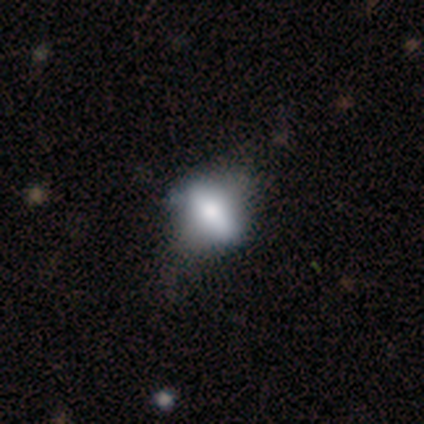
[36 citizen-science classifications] This appears to be a smooth galaxy with no disk features (53%) that is in between round and cigar-shaped (53%). Merging: none (45%).